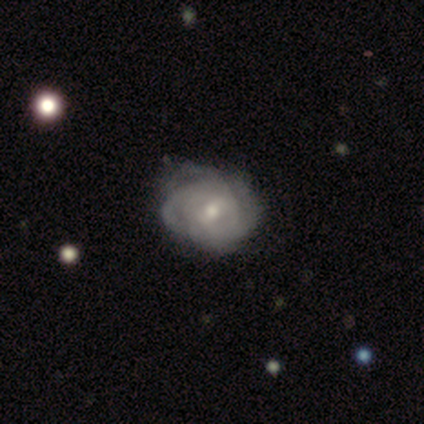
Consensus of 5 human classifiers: Smooth or featured? 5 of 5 (100%) said featured or disk. Edge-on disk? 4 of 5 (80%) said no. Bar? 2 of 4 (50%, tied with no) said weak. Spiral arms? 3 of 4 (75%) said yes. Spiral winding? 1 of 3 (33%, tied with medium and loose) said tight. Spiral arm count? 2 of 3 (67%) said 4. Bulge size? 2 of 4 (50%, tied with small) said moderate. Merging? 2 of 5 (40%, tied with major disturbance) said minor disturbance.